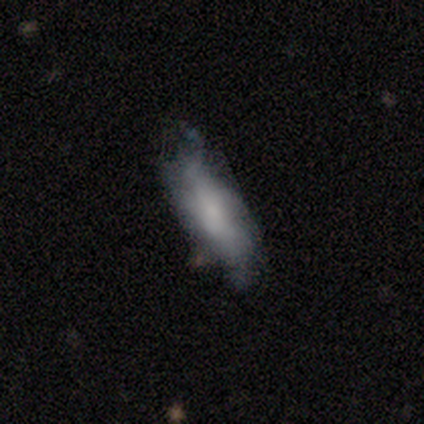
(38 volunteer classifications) Morphology: type=smooth (50%); roundness=in between (53%); merging=none (44%).